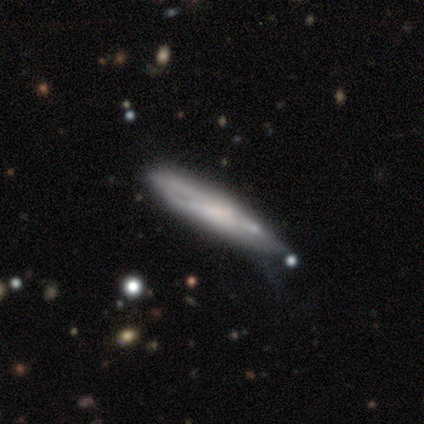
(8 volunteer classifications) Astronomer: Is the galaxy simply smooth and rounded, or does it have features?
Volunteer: smooth — 62%.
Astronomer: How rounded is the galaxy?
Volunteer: cigar-shaped — 80%.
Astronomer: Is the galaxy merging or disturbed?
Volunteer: none — 62%.